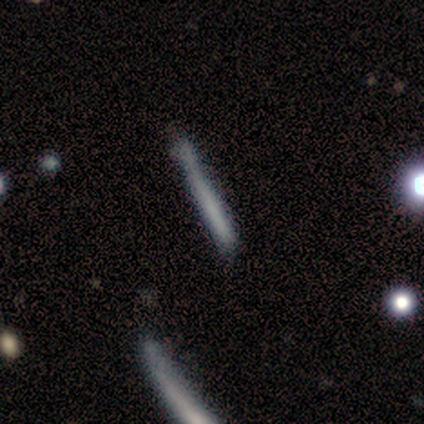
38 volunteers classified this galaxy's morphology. smooth-or-featured: smooth: 61% | featured or disk: 32% | star or artifact: 8%
  how-rounded: cigar-shaped: 100% | round: 0% | in between: 0%
  merging: none: 66% | minor disturbance: 20% | major disturbance: 11% | merger: 3%